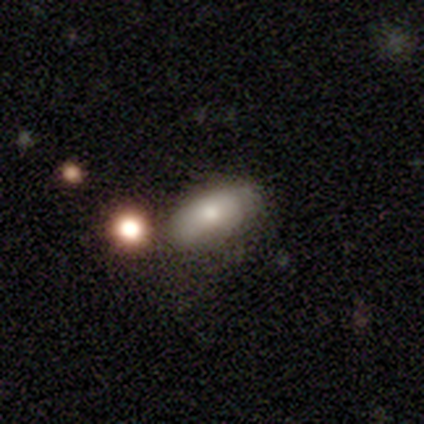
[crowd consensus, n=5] This appears to be a smooth galaxy with no disk features (80%) that is in between round and cigar-shaped (100%). Merging: none (60%).